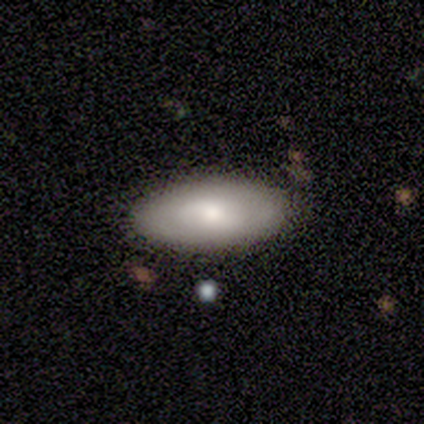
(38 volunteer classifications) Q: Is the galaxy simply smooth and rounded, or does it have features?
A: smooth — 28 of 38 (74%).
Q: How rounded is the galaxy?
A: in between — 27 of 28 (96%).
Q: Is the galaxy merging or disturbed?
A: none — 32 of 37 (86%).